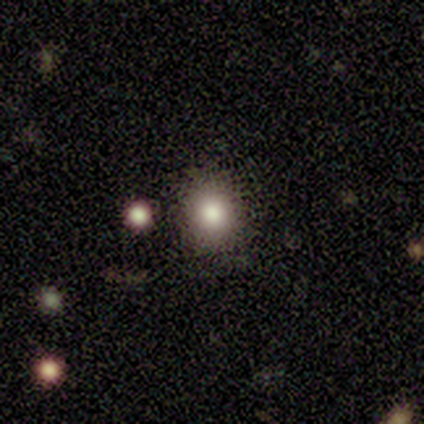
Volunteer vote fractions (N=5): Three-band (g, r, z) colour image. It shows a smooth galaxy with no disk features (60%) that is round (100%). Merging: none (75%).